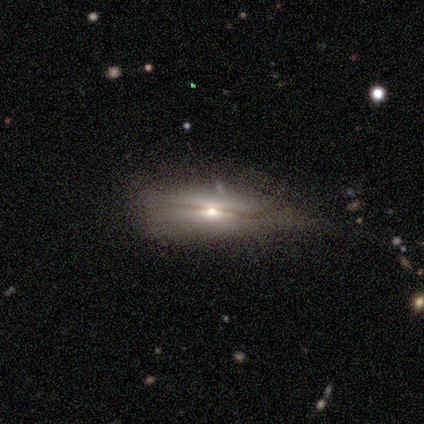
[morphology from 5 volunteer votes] A featured or disk galaxy (60%) viewed edge-on (100%) with a rounded central bulge (100%). Merging: none (67%).